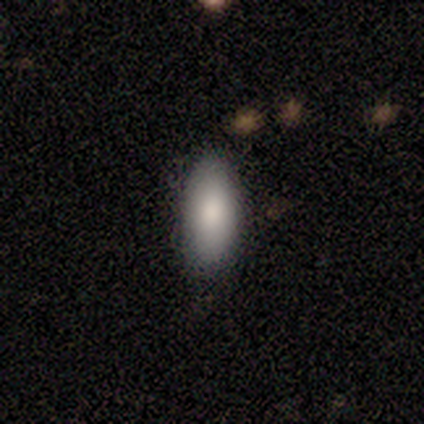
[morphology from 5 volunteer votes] This appears to be a smooth galaxy with no disk features (100%) that is in between round and cigar-shaped (100%). Merging: none (80%).